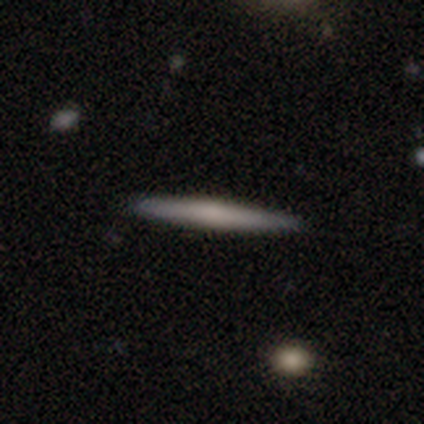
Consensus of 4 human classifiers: Volunteers were most divided on "smooth or featured": smooth: 75%, featured or disk: 25%, star or artifact: 0%. More confident: how rounded — cigar-shaped (100%); merging — none (100%).